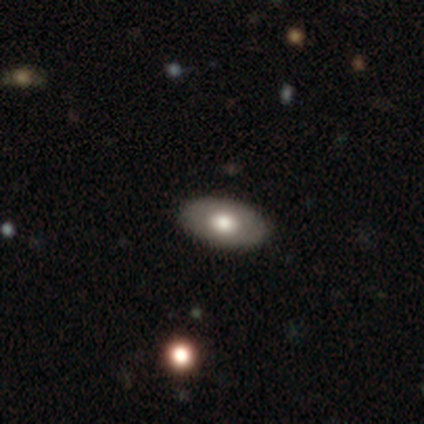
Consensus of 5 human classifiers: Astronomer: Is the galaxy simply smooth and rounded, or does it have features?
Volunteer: smooth — 80%.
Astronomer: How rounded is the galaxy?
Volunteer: in between — 100%.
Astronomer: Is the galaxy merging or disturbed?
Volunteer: none — 100%.